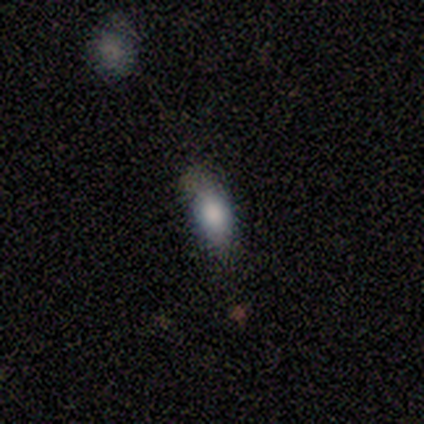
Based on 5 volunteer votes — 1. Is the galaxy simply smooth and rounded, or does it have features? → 100% smooth, 0% featured or disk, 0% star or artifact.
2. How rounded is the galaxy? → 80% in between, 20% cigar-shaped, 0% round.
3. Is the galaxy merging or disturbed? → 60% none, 20% minor disturbance, 20% major disturbance, 0% merger.